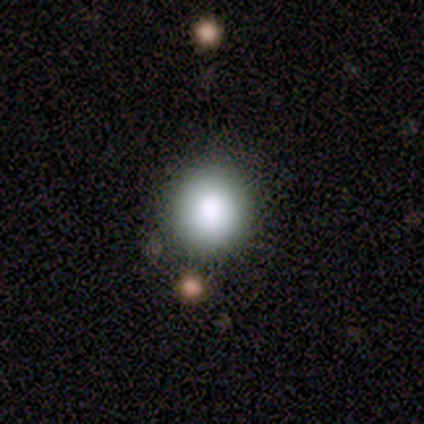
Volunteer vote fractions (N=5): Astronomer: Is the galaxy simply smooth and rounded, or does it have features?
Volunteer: smooth — 100%.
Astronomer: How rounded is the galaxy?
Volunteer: round — 100%.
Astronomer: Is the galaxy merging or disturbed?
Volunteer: none — 60%.